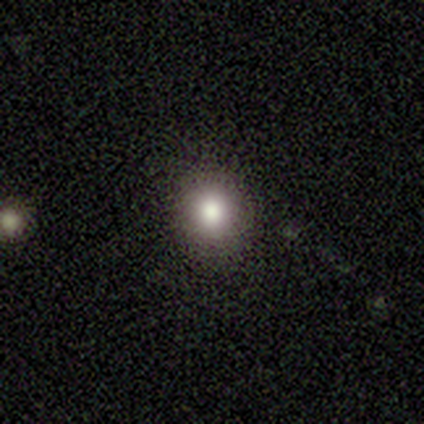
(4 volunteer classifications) Q: Smooth or featured?
A: smooth (75%); runner-up: featured or disk (25%)
Q: How rounded?
A: round (100%)
Q: Merging?
A: none (100%)